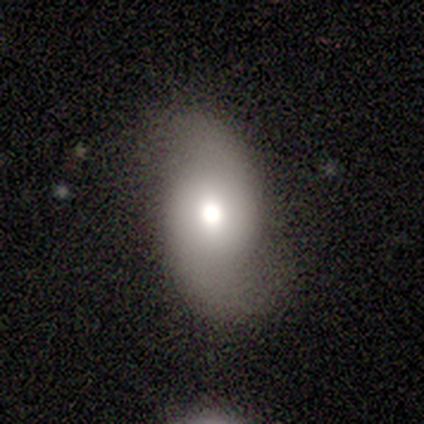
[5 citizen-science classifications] Morphology: type=smooth (40%, tied with featured or disk); roundness=round (50%, tied with in between); merging=none (75%).